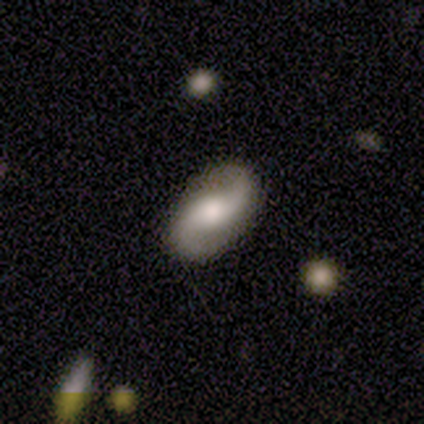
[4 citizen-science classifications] Smooth or featured: featured or disk — 75% (star or artifact — 25%)
Edge-on disk: no — 100%
Bar: no — 67% (weak — 33%)
Spiral arms: yes — 100%
Spiral winding: loose — 100%
Spiral arm count: 2 — 100%
Bulge size: moderate — 67% (small — 33%)
Merging: none — 100%